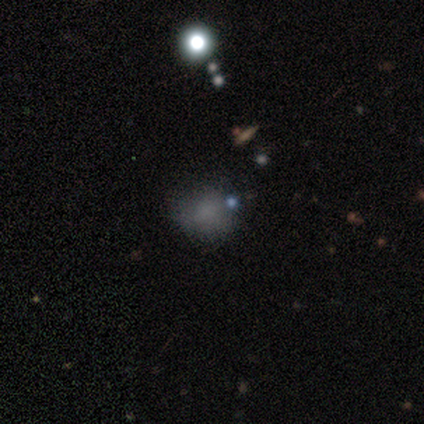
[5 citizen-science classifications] Smooth or featured: smooth — 60% (featured or disk — 20%)
How rounded: round — 100%
Merging: none — 50% (minor disturbance — 25%)